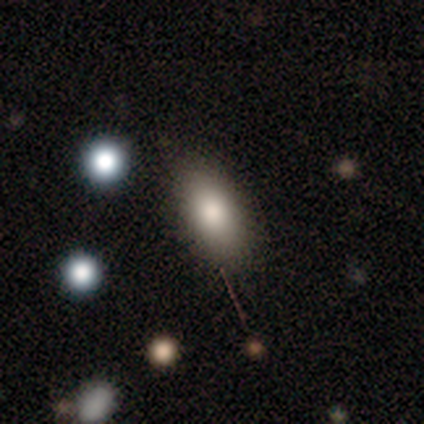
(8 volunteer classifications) This is likely a smooth galaxy (75%). How rounded: clearly in between (100%). Merging: clearly none (88%).